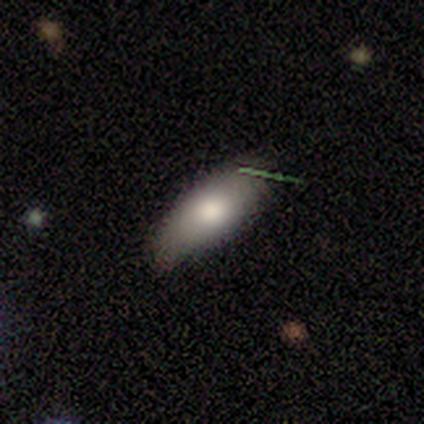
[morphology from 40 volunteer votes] A smooth galaxy with no disk features (70%) that is in between round and cigar-shaped (86%).

Vote fractions:
- Smooth or featured? smooth: 70% / featured or disk: 22% / star or artifact: 8%
- How rounded? in between: 86% / cigar-shaped: 14% / round: 0%
- Merging? none: 70% / minor disturbance: 24% / major disturbance: 5% / merger: 0%